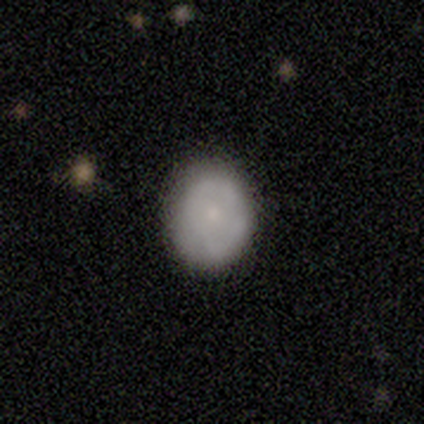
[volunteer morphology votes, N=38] Smooth or featured? smooth (63%)
How rounded? round (67%)
Merging? none (92%)